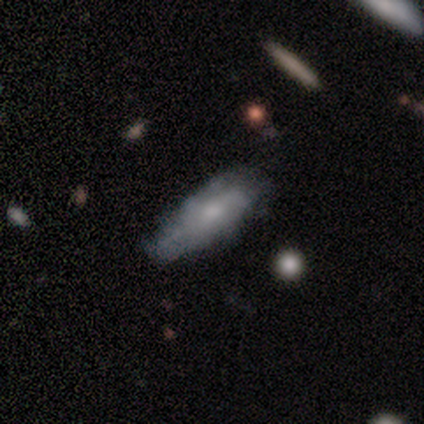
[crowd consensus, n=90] Smooth or featured: smooth — 50% (featured or disk — 39%)
How rounded: in between — 58% (cigar-shaped — 42%)
Merging: none — 61% (minor disturbance — 30%)